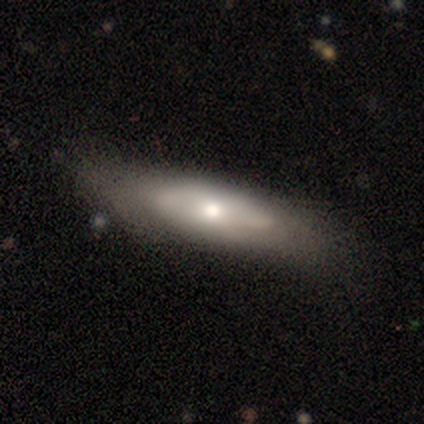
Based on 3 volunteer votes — Smooth or featured? smooth (100%)
How rounded? cigar-shaped (67%)
Merging? minor disturbance (67%)